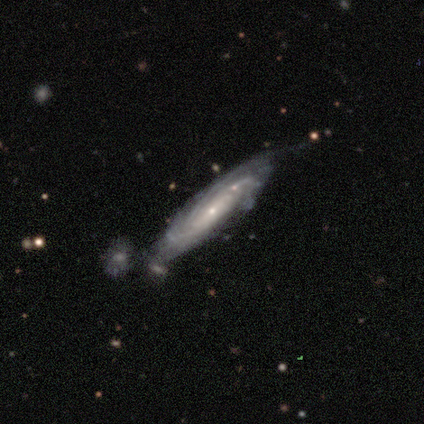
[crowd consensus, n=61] This appears to be a featured or disk galaxy (84%) with no bar (80%), tight (71%) spiral arms (95%) and a small central bulge (82%). Merging: none (41%).